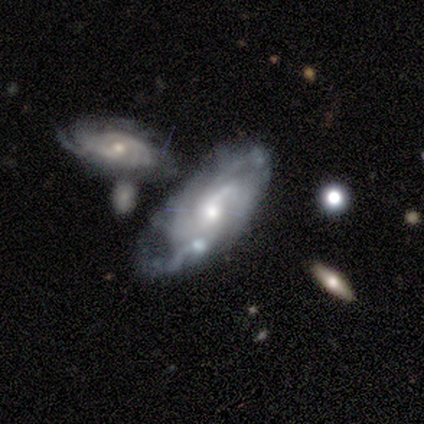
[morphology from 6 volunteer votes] Smooth or featured? featured or disk (100%)
Edge-on disk? no (100%)
Bar? no (67%)
Spiral arms? yes (100%)
Spiral winding? tight (50%, tied with medium)
Spiral arm count? 4 (50%)
Bulge size? small (50%)
Merging? none (67%)